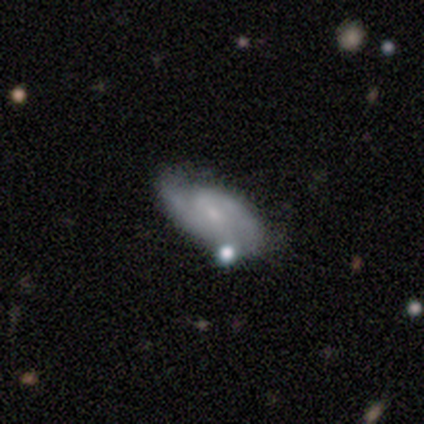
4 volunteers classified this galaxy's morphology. Smooth or featured?
  - featured or disk: 75% *
  - smooth: 25%
  - star or artifact: 0%
Edge-on disk?
  - no: 100% *
  - yes: 0%
Bar?
  - no: 67% *
  - weak: 33%
  - strong: 0%
Spiral arms?
  - yes: 100% *
  - no: 0%
Spiral winding?
  - tight: 67% *
  - medium: 33%
  - loose: 0%
Spiral arm count?
  - 2: 100% *
  - 1: 0%
  - 3: 0%
  - 4: 0%
  - more than 4: 0%
  - can't tell: 0%
Bulge size?
  - none: 67% *
  - small: 33%
  - dominant: 0%
  - large: 0%
  - moderate: 0%
Merging?
  - none: 75% *
  - major disturbance: 25%
  - minor disturbance: 0%
  - merger: 0%